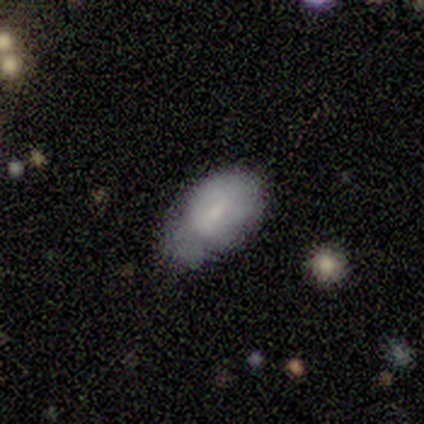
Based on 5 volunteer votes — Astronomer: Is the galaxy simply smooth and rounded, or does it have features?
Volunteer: smooth — 60% (runner-up: featured or disk, 40%).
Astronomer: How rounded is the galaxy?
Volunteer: in between — 100%.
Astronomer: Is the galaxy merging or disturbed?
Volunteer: none — 60% (runner-up: minor disturbance, 40%).